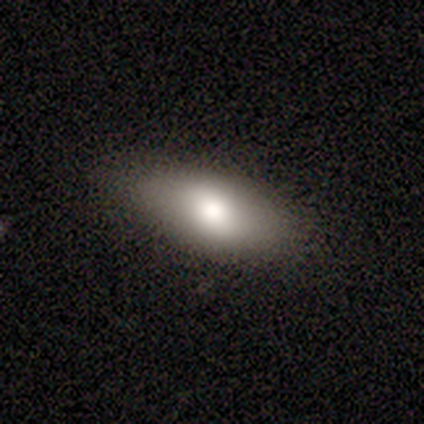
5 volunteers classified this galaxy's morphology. Volunteers were most divided on "merging": none: 60%, minor disturbance: 20%, merger: 20%, major disturbance: 0%. More confident: smooth or featured — smooth (100%); how rounded — in between (80%).